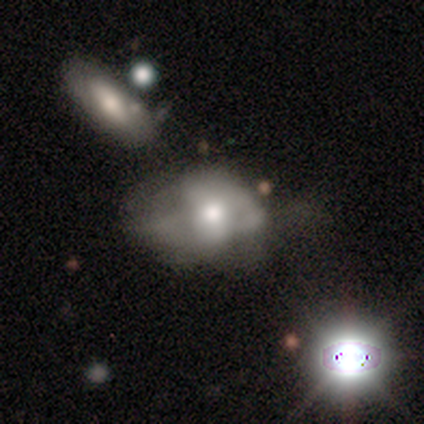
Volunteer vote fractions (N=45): A featured or disk galaxy (42%) with no bar (79%), no spiral arms (63%) and a moderate central bulge (79%).

Vote fractions:
- Smooth or featured? featured or disk: 42% / smooth: 40% / star or artifact: 18%
- Edge-on disk? no: 100% / yes: 0%
- Bar? no: 79% / weak: 16% / strong: 5%
- Spiral arms? no: 63% / yes: 37%
- Bulge size? moderate: 79% / large: 11% / small: 5% / none: 5% / dominant: 0%
- Merging? major disturbance: 41% / minor disturbance: 24% / none: 22% / merger: 14%